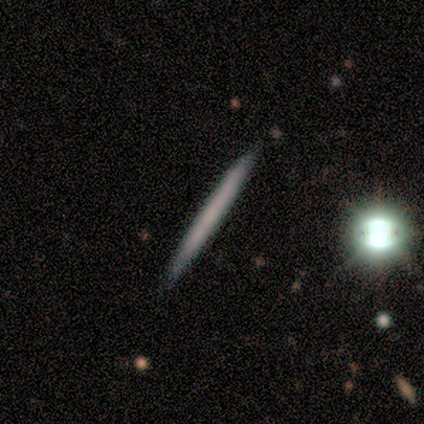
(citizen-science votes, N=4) A smooth galaxy with no disk features (75%) that is cigar-shaped (100%).

Vote fractions:
- Smooth or featured? smooth: 75% / featured or disk: 25% / star or artifact: 0%
- How rounded? cigar-shaped: 100% / round: 0% / in between: 0%
- Merging? none: 100% / minor disturbance: 0% / major disturbance: 0% / merger: 0%